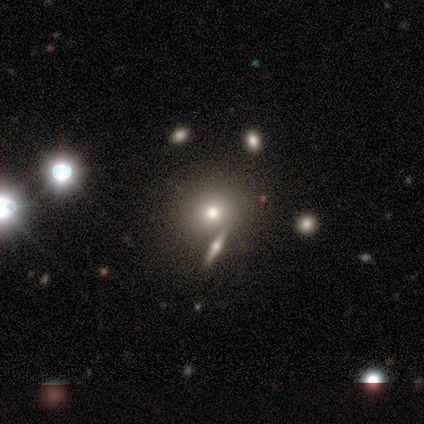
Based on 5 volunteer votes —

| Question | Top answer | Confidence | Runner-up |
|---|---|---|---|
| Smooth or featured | smooth | 40% | tied: star or artifact (40%) |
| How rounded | round | 100% | — |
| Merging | none | 67% | minor disturbance (33%) |